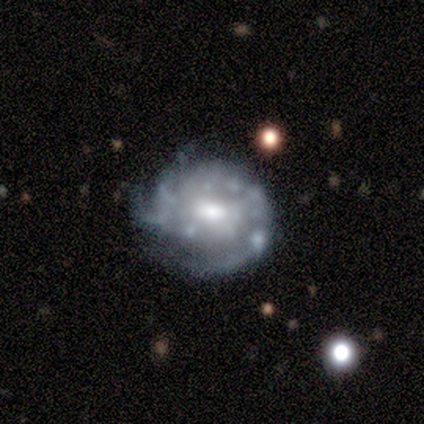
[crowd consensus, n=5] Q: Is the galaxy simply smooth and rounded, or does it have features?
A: featured or disk — 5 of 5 (100%).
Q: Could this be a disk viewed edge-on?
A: no — 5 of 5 (100%).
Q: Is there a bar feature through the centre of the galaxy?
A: no — 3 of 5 (60%).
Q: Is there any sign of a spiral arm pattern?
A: no — 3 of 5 (60%).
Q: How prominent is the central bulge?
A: moderate — 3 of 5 (60%).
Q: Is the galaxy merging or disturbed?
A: none — 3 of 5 (60%).